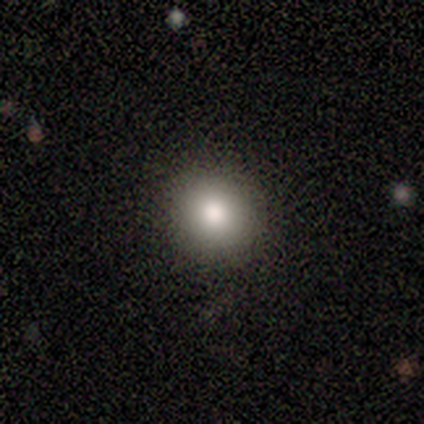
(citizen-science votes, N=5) Volunteers were most divided on "smooth or featured": smooth: 60%, featured or disk: 20%, star or artifact: 20%. More confident: how rounded — round (100%); merging — none (75%).